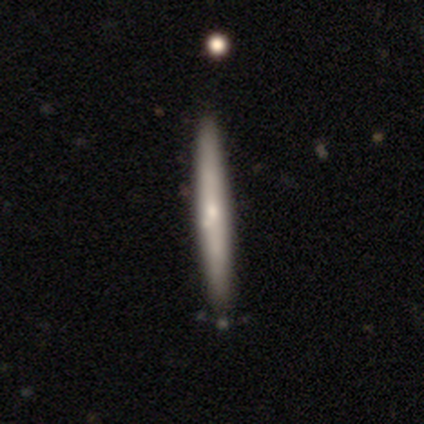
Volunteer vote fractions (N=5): smooth 80%, featured or disk 20%, star or artifact 0%. Down the decision tree: how rounded — cigar-shaped (100%); merging — none (80%).